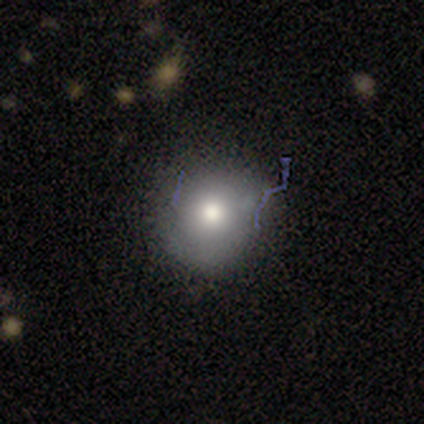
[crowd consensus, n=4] Smooth or featured? smooth (100%)
How rounded? round (100%)
Merging? none (100%)